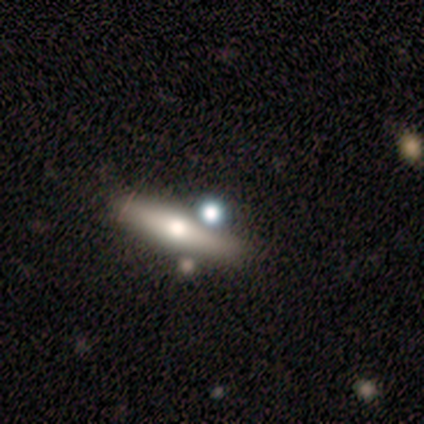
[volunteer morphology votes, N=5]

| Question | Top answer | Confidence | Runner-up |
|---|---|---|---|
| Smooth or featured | smooth | 60% | featured or disk (40%) |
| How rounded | cigar-shaped | 67% | in between (33%) |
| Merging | none | 80% | major disturbance (20%) |